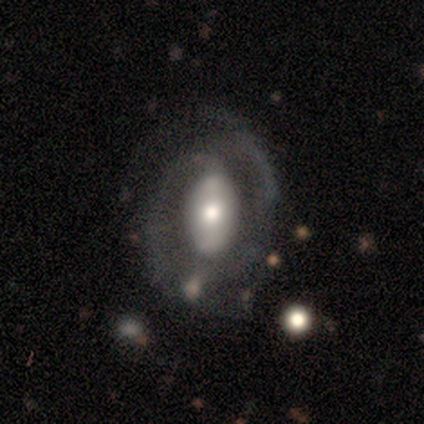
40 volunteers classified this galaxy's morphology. Smooth or featured?
  - featured or disk: 88% *
  - smooth: 10%
  - star or artifact: 2%
Edge-on disk?
  - no: 97% *
  - yes: 3%
Bar?
  - no: 44% *
  - strong: 38%
  - weak: 18%
Spiral arms?
  - yes: 97% *
  - no: 3%
Spiral winding?
  - tight: 45% *
  - medium: 27%
  - loose: 27%
Spiral arm count?
  - 2: 82% *
  - 1: 12%
  - can't tell: 6%
  - 3: 0%
  - 4: 0%
  - more than 4: 0%
Bulge size?
  - moderate: 56% *
  - large: 35%
  - small: 9%
  - dominant: 0%
  - none: 0%
Merging?
  - none: 62% *
  - major disturbance: 18%
  - minor disturbance: 15%
  - merger: 5%